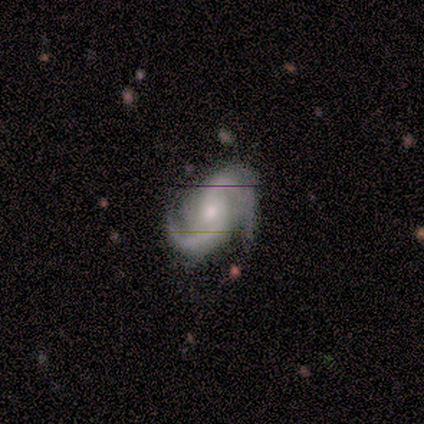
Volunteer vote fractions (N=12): This is clearly a featured or disk galaxy (100%). It is clearly not viewed edge-on (100%). Bar: likely no (67%). Spiral arm pattern: clearly yes (100%). Spiral arm count: likely 2 (75%). Spiral winding: likely medium (67%). Central bulge: possibly moderate (58%). Merging: likely none (67%).